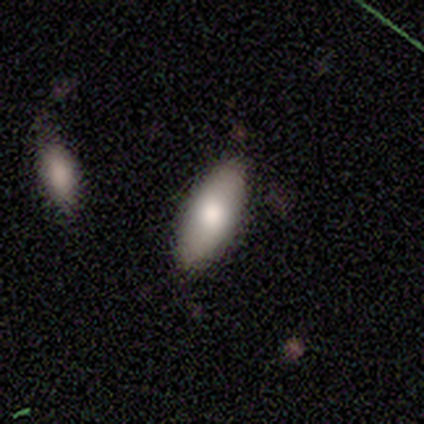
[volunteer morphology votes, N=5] Volunteers were most divided on "merging": none: 80%, minor disturbance: 20%, major disturbance: 0%, merger: 0%. More confident: smooth or featured — smooth (100%); how rounded — in between (100%).